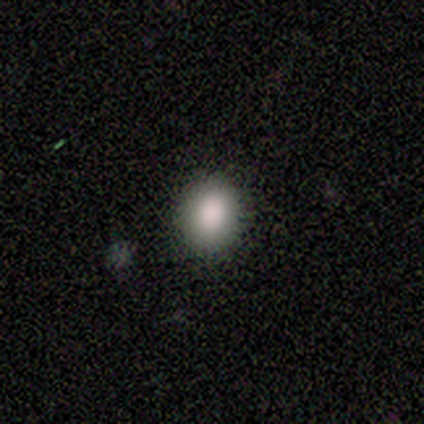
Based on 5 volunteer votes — smooth 100%, featured or disk 0%, star or artifact 0%. Down the decision tree: how rounded — in between (80%); merging — none (100%).